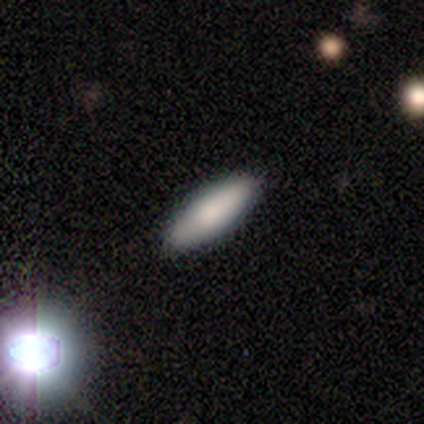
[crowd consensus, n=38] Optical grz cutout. It shows a smooth galaxy with no disk features (79%) that is in between round and cigar-shaped (60%). Merging: none (86%).